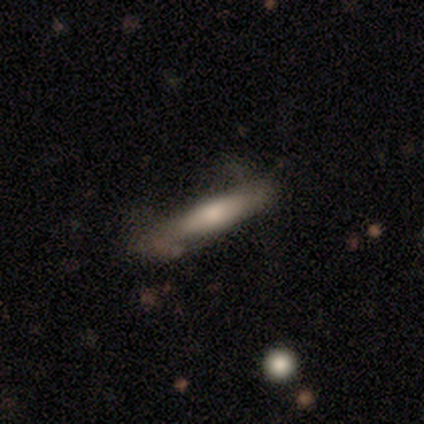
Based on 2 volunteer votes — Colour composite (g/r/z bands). It shows a smooth galaxy with no disk features (100%) that is cigar-shaped (100%). Merging: none (100%).